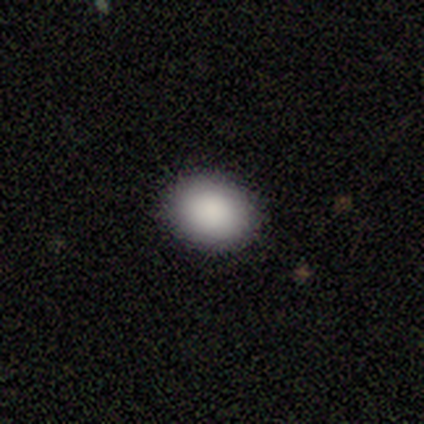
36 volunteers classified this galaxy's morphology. Q: Smooth or featured?
A: smooth (81%); runner-up: star or artifact (11%)
Q: How rounded?
A: round (52%); runner-up: in between (45%)
Q: Merging?
A: none (97%); runner-up: major disturbance (3%)